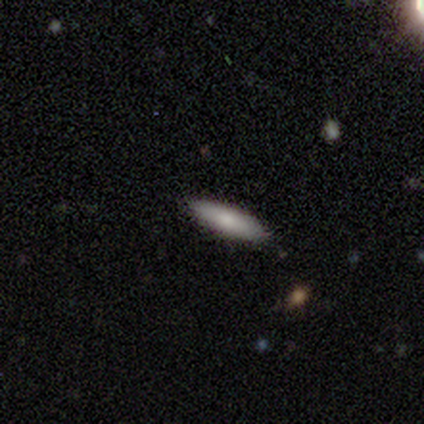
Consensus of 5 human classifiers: Volunteers were most divided on "how rounded" (2-way tie): in between: 50%, cigar-shaped: 50%, round: 0%. More confident: smooth or featured — smooth (80%); merging — none (80%).